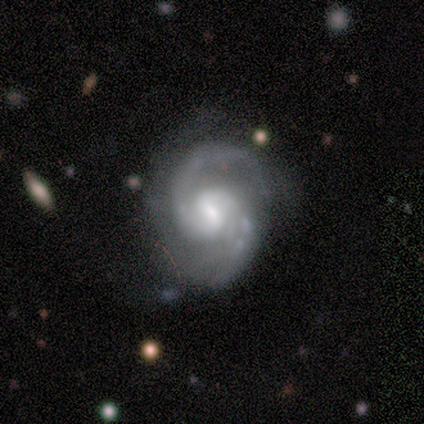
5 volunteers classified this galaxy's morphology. Smooth or featured: featured or disk — 100%
Edge-on disk: no — 100%
Bar: weak — 60% (strong — 20%)
Spiral arms: yes — 100%
Spiral winding: medium — 80% (tight — 20%)
Spiral arm count: 2 — 80% (can't tell — 20%)
Bulge size: moderate — 40% (large — 20%)
Merging: none — 80% (minor disturbance — 20%)